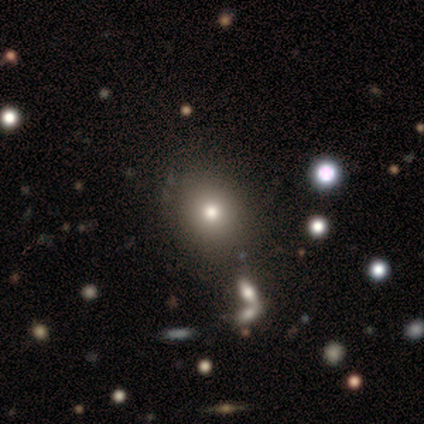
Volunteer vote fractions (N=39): Smooth or featured?
  - smooth: 69% *
  - star or artifact: 23%
  - featured or disk: 8%
How rounded?
  - round: 89% *
  - in between: 11%
  - cigar-shaped: 0%
Merging?
  - none: 87% *
  - merger: 7%
  - minor disturbance: 3%
  - major disturbance: 3%